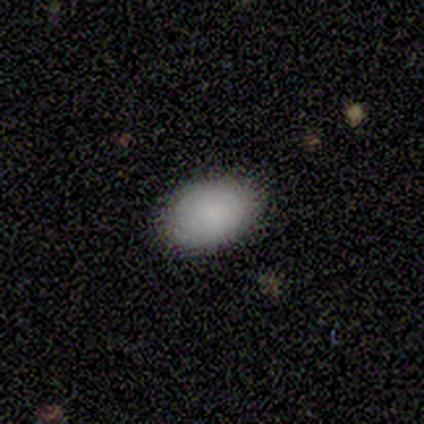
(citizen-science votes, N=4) smooth-or-featured: smooth: 75% | featured or disk: 25% | star or artifact: 0%
  how-rounded: in between: 100% | round: 0% | cigar-shaped: 0%
  merging: none: 75% | minor disturbance: 25% | major disturbance: 0% | merger: 0%